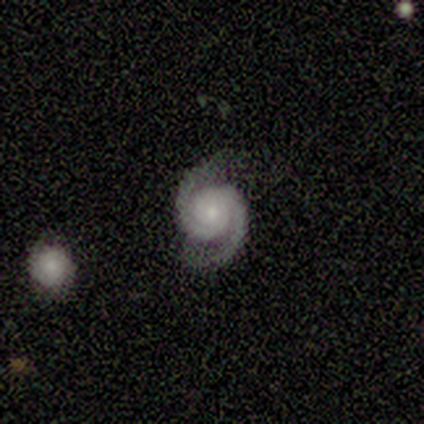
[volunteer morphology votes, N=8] Smooth or featured?
  - featured or disk: 100% *
  - smooth: 0%
  - star or artifact: 0%
Edge-on disk?
  - no: 100% *
  - yes: 0%
Bar?
  - no: 88% *
  - weak: 12%
  - strong: 0%
Spiral arms?
  - yes: 100% *
  - no: 0%
Spiral winding?
  - tight: 62% *
  - medium: 25%
  - loose: 12%
Spiral arm count?
  - 2: 100% *
  - 1: 0%
  - 3: 0%
  - 4: 0%
  - more than 4: 0%
  - can't tell: 0%
Bulge size?
  - small: 100% *
  - dominant: 0%
  - large: 0%
  - moderate: 0%
  - none: 0%
Merging?
  - none: 62% *
  - minor disturbance: 38%
  - major disturbance: 0%
  - merger: 0%